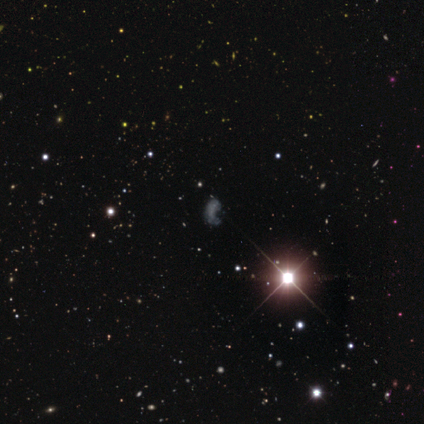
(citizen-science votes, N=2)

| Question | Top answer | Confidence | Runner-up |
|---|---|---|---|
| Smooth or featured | smooth | 50% | tied: star or artifact (50%) |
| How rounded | in between | 100% | — |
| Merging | minor disturbance | 100% | — |